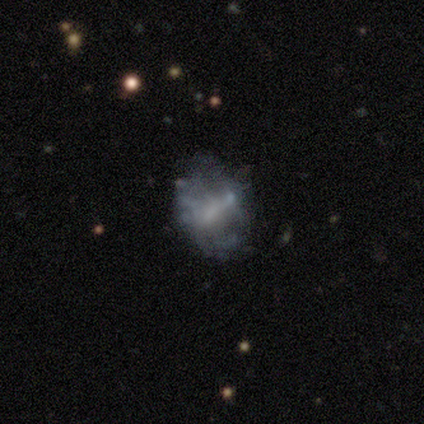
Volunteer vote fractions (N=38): Morphology: type=featured or disk (55%); edge-on=no (100%); bar=no (43%); spiral arms=no (76%); bulge=none (67%); merging=none (61%).